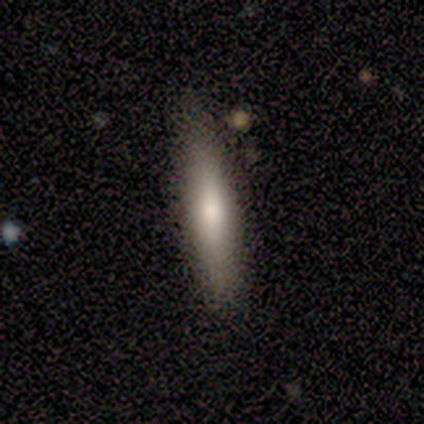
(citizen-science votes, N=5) This appears to be a smooth galaxy with no disk features (100%) that is cigar-shaped (100%). Merging: none (80%).